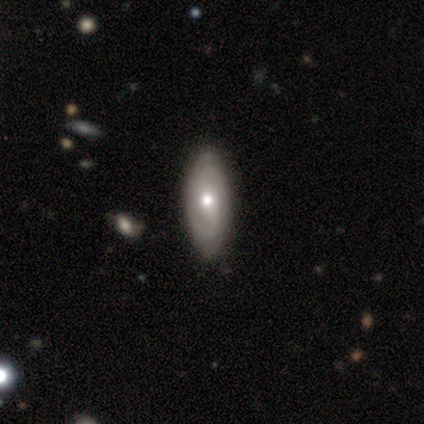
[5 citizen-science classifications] Smooth or featured? 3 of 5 (60%) said featured or disk. Edge-on disk? 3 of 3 (100%) said no. Bar? 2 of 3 (67%) said no. Spiral arms? 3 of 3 (100%) said yes. Spiral winding? 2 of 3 (67%) said tight. Spiral arm count? 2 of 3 (67%) said can't tell. Bulge size? 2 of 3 (67%) said moderate. Merging? 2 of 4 (50%, tied with minor disturbance) said none.